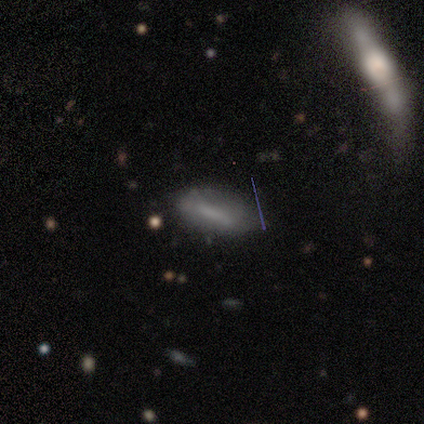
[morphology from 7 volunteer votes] A smooth galaxy with no disk features (43%) that is in between round and cigar-shaped (67%). Merging: none (60%).